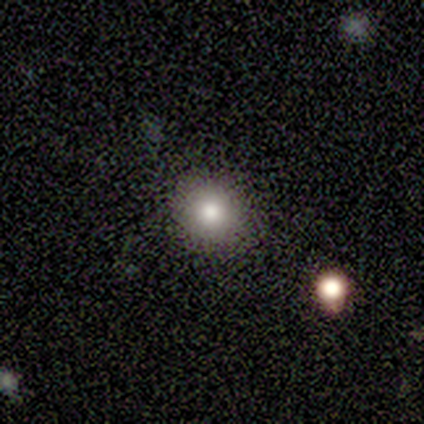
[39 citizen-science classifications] This appears to be a smooth galaxy with no disk features (85%) that is round (91%). Merging: none (87%).